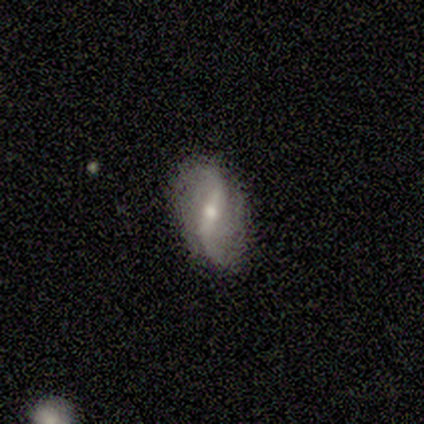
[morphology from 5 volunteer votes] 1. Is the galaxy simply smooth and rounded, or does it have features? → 100% featured or disk, 0% smooth, 0% star or artifact.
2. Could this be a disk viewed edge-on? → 100% no, 0% yes.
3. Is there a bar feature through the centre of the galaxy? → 60% weak, 40% strong, 0% no.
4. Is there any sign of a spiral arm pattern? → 80% yes, 20% no.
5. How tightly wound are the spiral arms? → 100% loose, 0% tight, 0% medium.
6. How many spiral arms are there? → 100% 2, 0% 1, 0% 3, 0% 4, 0% more than 4, 0% can't tell.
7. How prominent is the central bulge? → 60% moderate, 40% small, 0% dominant, 0% large, 0% none.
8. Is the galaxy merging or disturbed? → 80% none, 20% major disturbance, 0% minor disturbance, 0% merger.